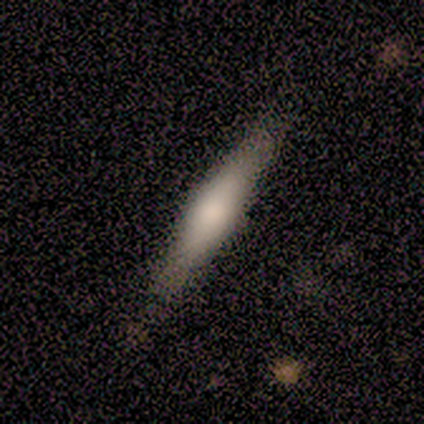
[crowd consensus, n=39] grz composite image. It shows a smooth galaxy with no disk features (54%) that is cigar-shaped (90%). Merging: none (46%).